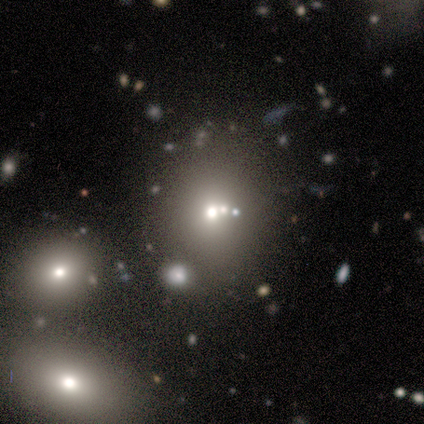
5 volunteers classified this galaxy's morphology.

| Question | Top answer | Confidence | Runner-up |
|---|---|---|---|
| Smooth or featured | smooth | 60% | featured or disk (40%) |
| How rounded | round | 100% | — |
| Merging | none | 60% | merger (40%) |